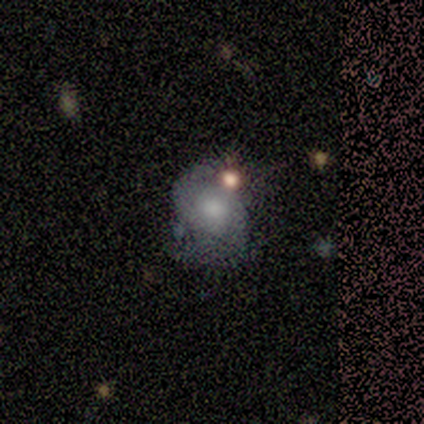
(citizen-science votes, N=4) smooth_or_featured: featured or disk (p=0.75) [alt: smooth p=0.25]
disk_edge_on: no (p=1.00)
bar: no (p=0.67) [alt: weak p=0.33]
has_spiral_arms: yes (p=1.00)
spiral_winding: tight (p=0.67) [alt: medium p=0.33]
spiral_arm_count: 2 (p=1.00)
bulge_size: large (p=0.67) [alt: moderate p=0.33]
merging: none (p=0.50) [tied with: minor disturbance p=0.50]